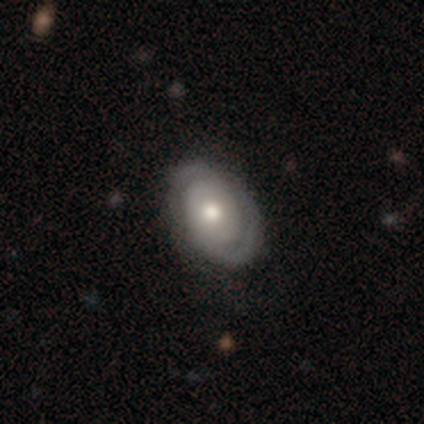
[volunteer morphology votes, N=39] Smooth or featured?
  - featured or disk: 79% *
  - smooth: 18%
  - star or artifact: 3%
Edge-on disk?
  - no: 97% *
  - yes: 3%
Bar?
  - no: 93% *
  - strong: 3%
  - weak: 3%
Spiral arms?
  - yes: 93% *
  - no: 7%
Spiral winding?
  - tight: 57% *
  - medium: 21%
  - loose: 21%
Spiral arm count?
  - 2: 71% *
  - can't tell: 21%
  - 1: 7%
  - 3: 0%
  - 4: 0%
  - more than 4: 0%
Bulge size?
  - moderate: 67% *
  - large: 20%
  - small: 13%
  - dominant: 0%
  - none: 0%
Merging?
  - none: 61% *
  - minor disturbance: 5%
  - major disturbance: 0%
  - merger: 0%